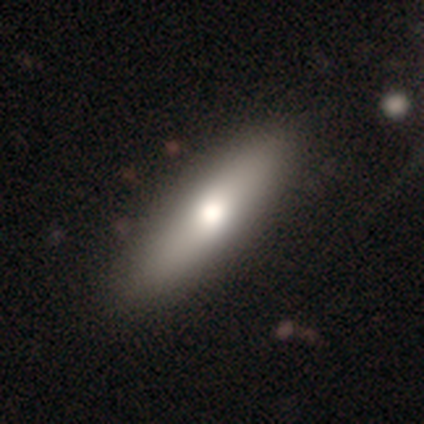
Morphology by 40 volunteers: smooth_or_featured: smooth (p=0.75) [alt: featured or disk p=0.20]
how_rounded: cigar-shaped (p=0.53) [alt: in between p=0.47]
merging: none (p=0.68) [alt: minor disturbance p=0.05]